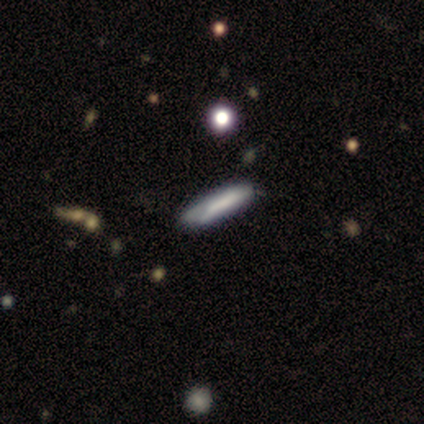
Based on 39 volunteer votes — Smooth or featured? smooth (62%)
How rounded? cigar-shaped (88%)
Merging? none (83%)